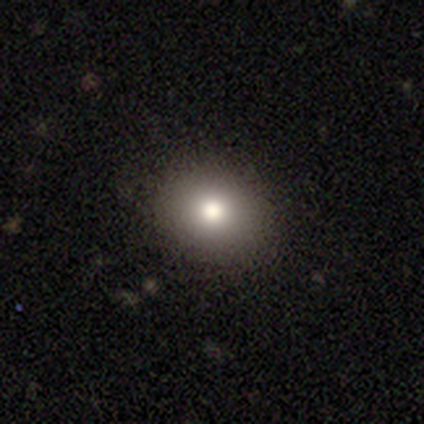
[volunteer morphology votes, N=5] type=smooth (80%); roundness=round (50%, tied with in between); merging=none (75%).